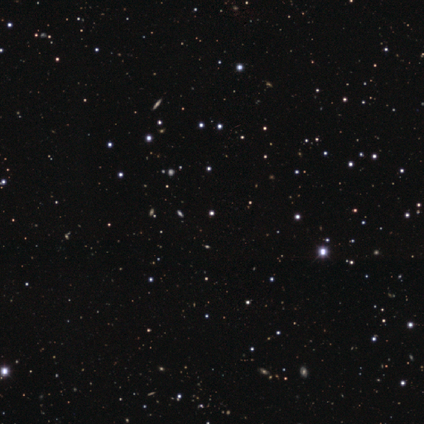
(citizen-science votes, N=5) smooth_or_featured: star or artifact (p=0.80) [alt: smooth p=0.20]